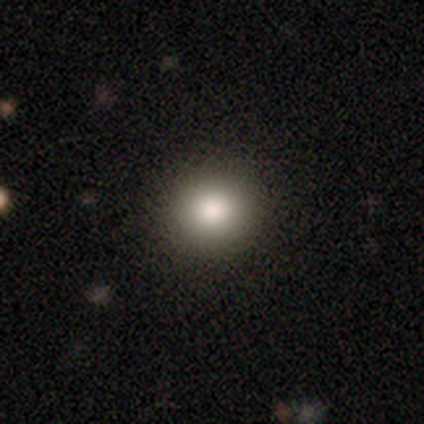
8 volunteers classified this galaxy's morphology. Smooth or featured? smooth (75%)
How rounded? round (67%)
Merging? none (86%)